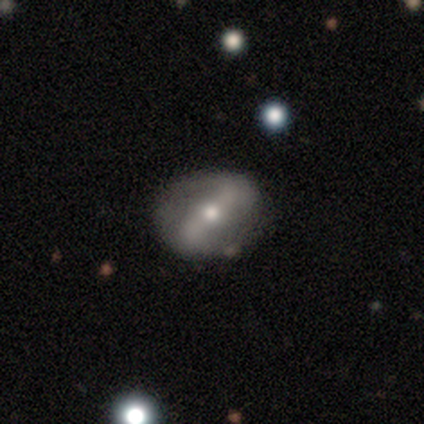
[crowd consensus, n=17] featured or disk 82%, smooth 18%, star or artifact 0%. Down the decision tree: edge-on disk — no (100%); bar — strong (71%); spiral arms — yes (64%); spiral arm count — 2 (78%); spiral winding — medium (44%); bulge size — moderate (79%); merging — none (71%).